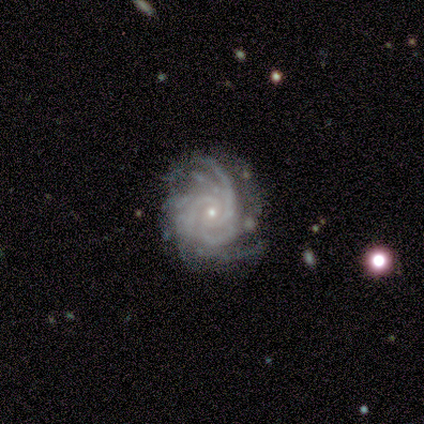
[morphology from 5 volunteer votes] Smooth or featured? 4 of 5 (80%) said featured or disk. Edge-on disk? 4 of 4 (100%) said no. Bar? 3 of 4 (75%) said no. Spiral arms? 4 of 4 (100%) said yes. Spiral winding? 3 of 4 (75%) said tight. Spiral arm count? 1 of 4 (25%, tied with 3, 4 and more than 4) said 2. Bulge size? 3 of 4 (75%) said small. Merging? 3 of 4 (75%) said none.